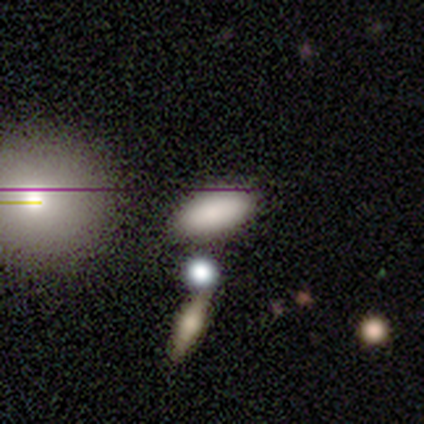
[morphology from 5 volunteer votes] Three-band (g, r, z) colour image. It shows a smooth galaxy with no disk features (80%) that is in between round and cigar-shaped (100%). Merging: none (50%, tied with minor disturbance).